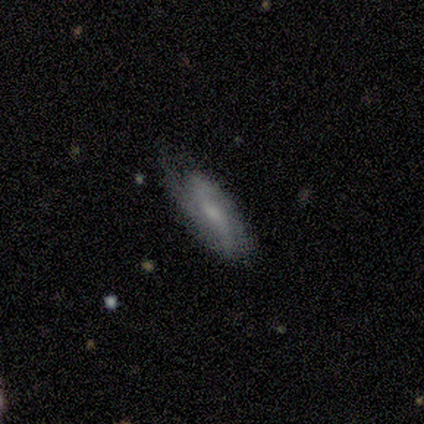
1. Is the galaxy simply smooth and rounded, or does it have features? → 60% featured or disk, 40% smooth, 0% star or artifact.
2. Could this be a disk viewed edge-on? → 100% no, 0% yes.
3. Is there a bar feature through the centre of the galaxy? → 67% no, 33% weak, 0% strong.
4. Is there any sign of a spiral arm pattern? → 100% yes, 0% no.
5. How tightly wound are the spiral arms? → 67% medium, 33% tight, 0% loose.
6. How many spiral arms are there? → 67% 2, 33% 3, 0% 1, 0% 4, 0% more than 4, 0% can't tell.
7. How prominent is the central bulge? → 33% moderate (tied), 33% small (tied), 33% none (tied), 0% dominant, 0% large.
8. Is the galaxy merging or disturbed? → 100% none, 0% minor disturbance, 0% major disturbance, 0% merger.